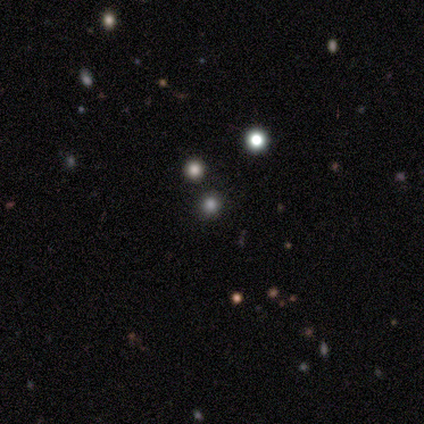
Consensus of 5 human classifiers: This appears to be a star or artifact, not a galaxy (80%).